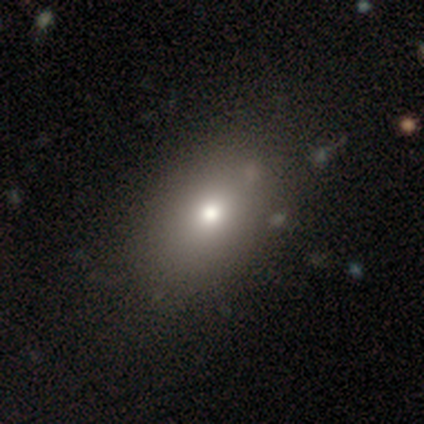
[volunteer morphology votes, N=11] Overall: smooth (64%). How rounded: in between (86%). Merging: none (89%).